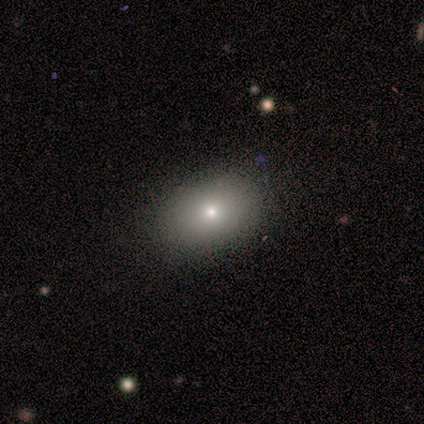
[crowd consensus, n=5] smooth 80%, star or artifact 20%, featured or disk 0%. Down the decision tree: how rounded — in between (100%); merging — none (100%).